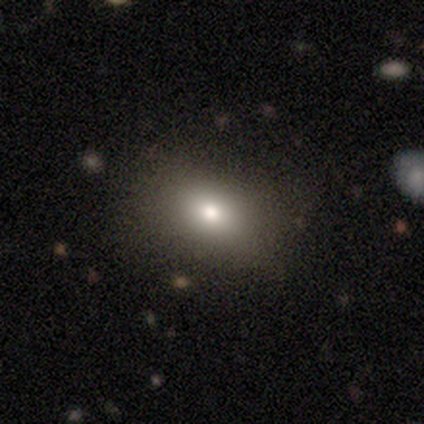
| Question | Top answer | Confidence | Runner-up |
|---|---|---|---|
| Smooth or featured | smooth | 78% | featured or disk (14%) |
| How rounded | in between | 72% | round (28%) |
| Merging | none | 74% | minor disturbance (18%) |